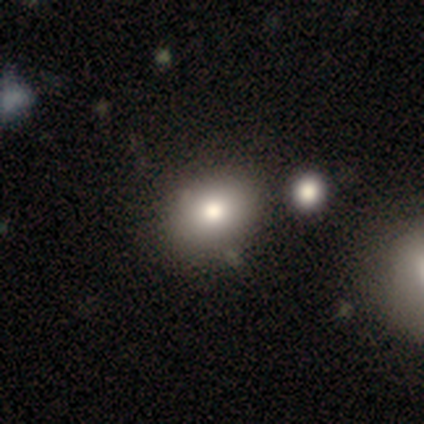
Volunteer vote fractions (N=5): Smooth or featured: smooth — 40% (tied with featured or disk — 40%)
How rounded: in between — 100%
Merging: minor disturbance — 50% (none — 25%)